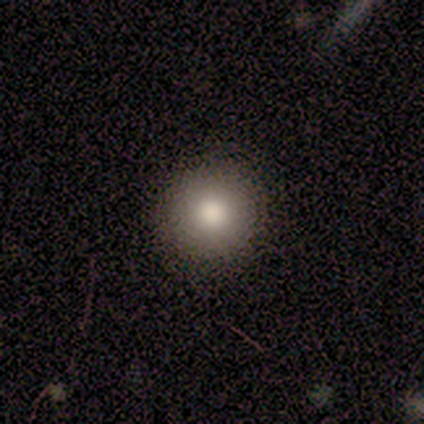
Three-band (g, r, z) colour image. It shows a smooth galaxy with no disk features (89%) that is round (100%). Merging: none (100%).